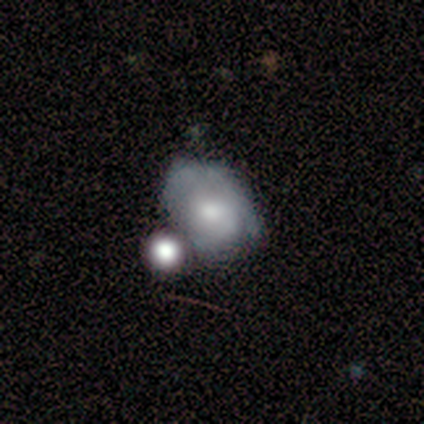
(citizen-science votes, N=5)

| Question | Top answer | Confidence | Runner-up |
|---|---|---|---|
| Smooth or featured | featured or disk | 80% | smooth (20%) |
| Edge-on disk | no | 75% | yes (25%) |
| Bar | no | 100% | — |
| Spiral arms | no | 100% | — |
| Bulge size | moderate | 100% | — |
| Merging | minor disturbance | 40% | tied: merger (40%) |